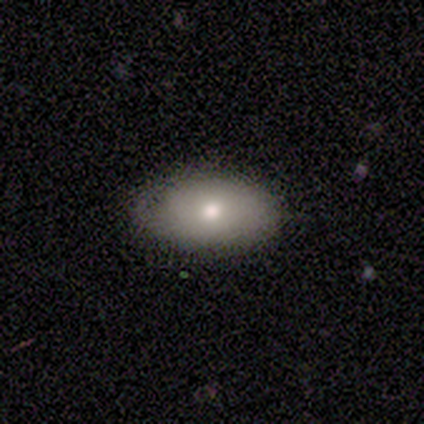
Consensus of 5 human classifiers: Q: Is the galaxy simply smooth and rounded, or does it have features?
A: smooth — 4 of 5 (80%).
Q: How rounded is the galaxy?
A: in between — 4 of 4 (100%).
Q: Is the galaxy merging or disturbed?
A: none — 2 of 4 (50%, tied with minor disturbance).